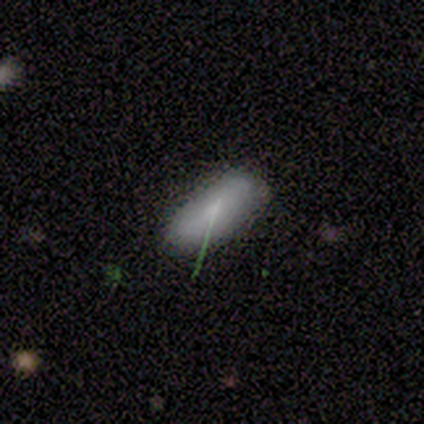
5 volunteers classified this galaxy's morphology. A smooth galaxy with no disk features (80%) that is in between round and cigar-shaped (75%). Merging: none (80%).